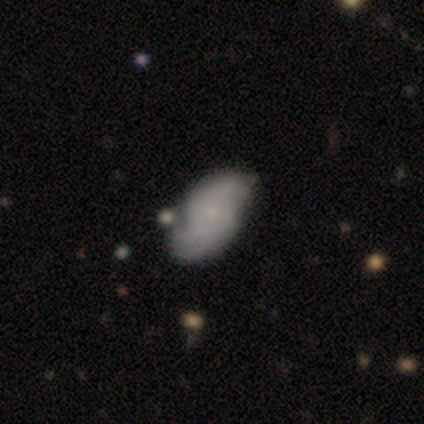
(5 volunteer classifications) featured or disk 100%, smooth 0%, star or artifact 0%. Down the decision tree: edge-on disk — no (100%); bar — no (80%); spiral arms — yes (100%); spiral arm count — 2 (80%); spiral winding — tight (60%); bulge size — moderate (80%); merging — none (40%, tied with minor disturbance).